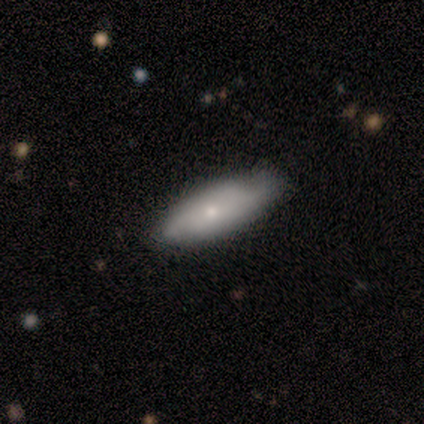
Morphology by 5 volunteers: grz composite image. It shows a featured or disk galaxy (60%) with no bar (100%), 2 (67%) medium (67%) spiral arms (100%) and a moderate central bulge (67%). Merging: none (100%).